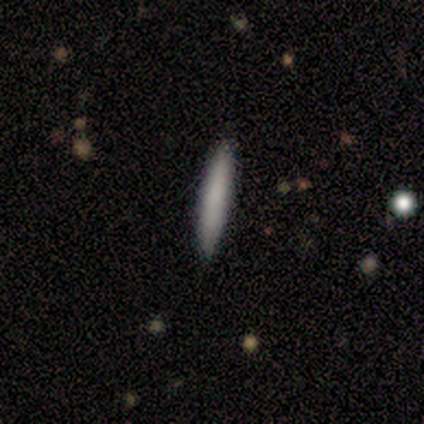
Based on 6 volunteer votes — Overall: smooth (67%; featured or disk 33%). How rounded: cigar-shaped (100%). Merging: none (100%).